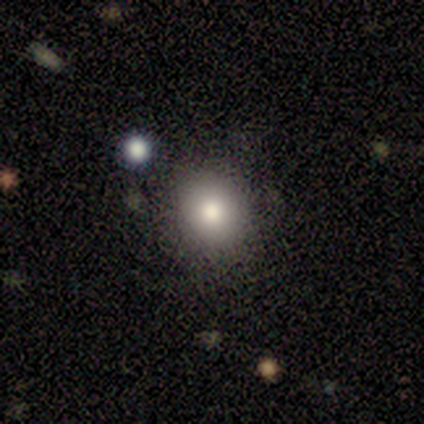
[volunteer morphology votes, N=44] Volunteers were most divided on "how rounded": round: 77%, in between: 23%, cigar-shaped: 0%. More confident: smooth or featured — smooth (89%); merging — none (83%).